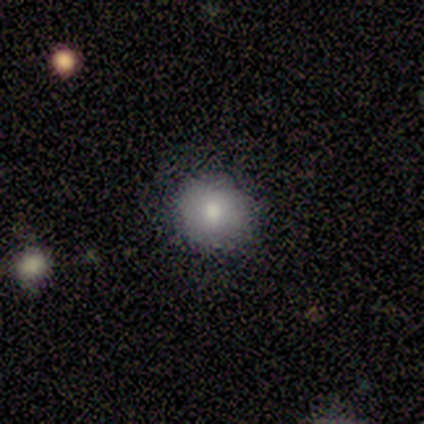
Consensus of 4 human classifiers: smooth_or_featured: smooth (p=1.00)
how_rounded: round (p=0.75) [alt: in between p=0.25]
merging: none (p=0.50) [tied with: major disturbance p=0.50]